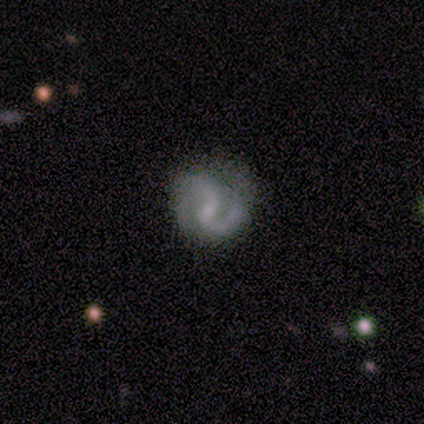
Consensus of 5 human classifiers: A featured or disk galaxy (100%) with a weak bar (80%), 2 (60%) medium (60%) spiral arms (100%) and no central bulge (60%). Merging: none (80%).